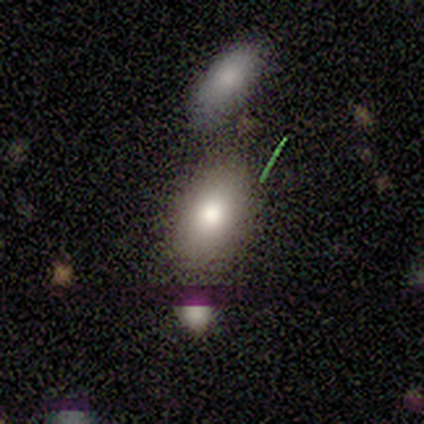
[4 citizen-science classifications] smooth_or_featured: star or artifact (p=0.50) [alt: smooth p=0.25]